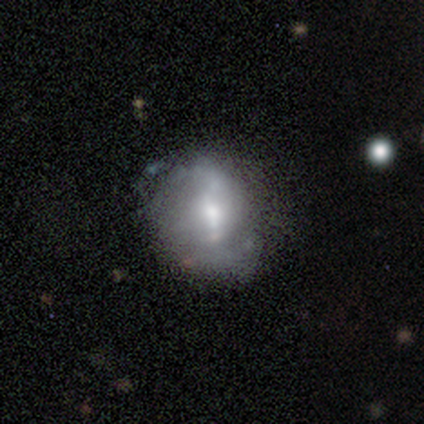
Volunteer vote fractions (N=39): smooth-or-featured: smooth: 46% | featured or disk: 44% | star or artifact: 10%
  how-rounded: round: 61% | in between: 39% | cigar-shaped: 0%
  merging: none: 57% | minor disturbance: 29% | major disturbance: 9% | merger: 6%